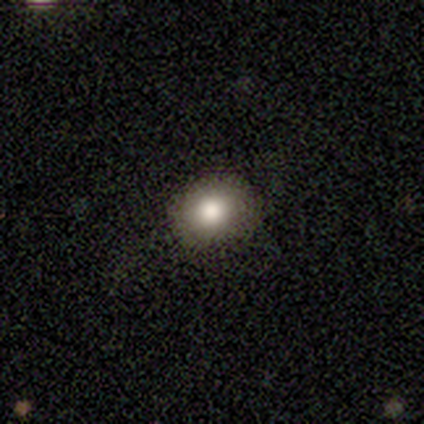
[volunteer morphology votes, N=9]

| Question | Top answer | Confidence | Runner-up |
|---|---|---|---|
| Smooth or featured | smooth | 89% | star or artifact (11%) |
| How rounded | round | 50% | tied: in between (50%) |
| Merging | none | 88% | minor disturbance (12%) |